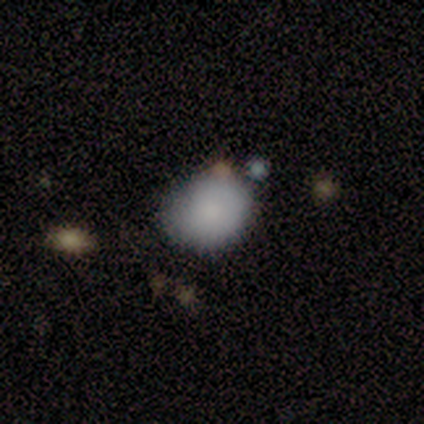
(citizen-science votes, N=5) Smooth or featured?
  - smooth: 100% *
  - featured or disk: 0%
  - star or artifact: 0%
How rounded?
  - round: 80% *
  - in between: 20%
  - cigar-shaped: 0%
Merging?
  - none: 100% *
  - minor disturbance: 0%
  - major disturbance: 0%
  - merger: 0%